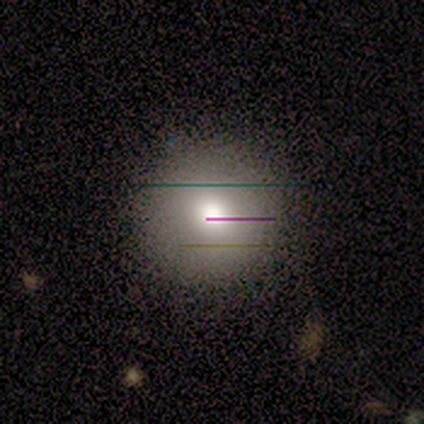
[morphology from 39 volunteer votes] A smooth galaxy with no disk features (72%) that is round (100%). Merging: none (91%).